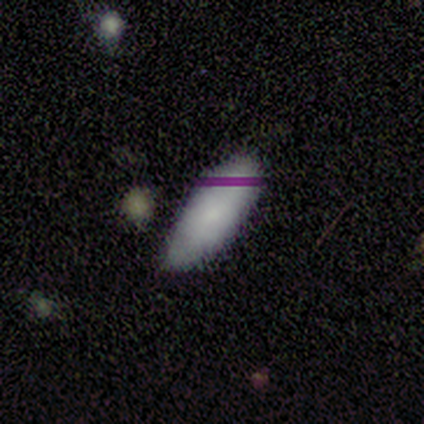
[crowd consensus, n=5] smooth 100%, featured or disk 0%, star or artifact 0%. Down the decision tree: how rounded — in between (80%); merging — none (60%).